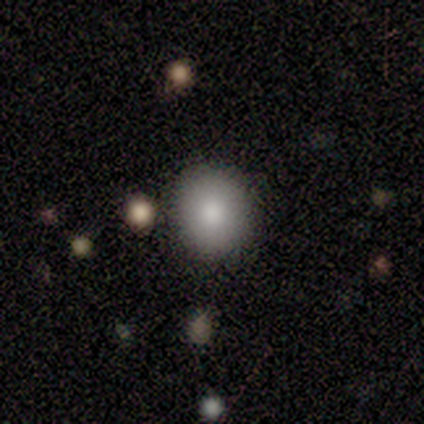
Q: Smooth or featured?
A: smooth (88%); runner-up: featured or disk (7%)
Q: How rounded?
A: round (82%); runner-up: in between (18%)
Q: Merging?
A: none (96%); runner-up: minor disturbance (4%)